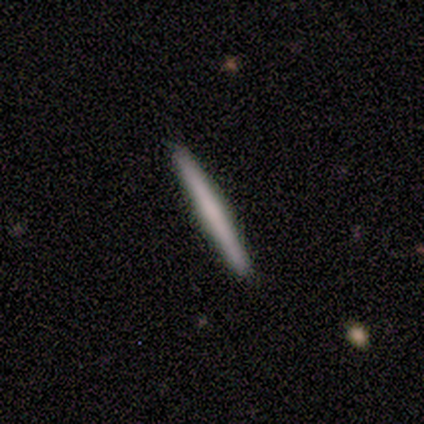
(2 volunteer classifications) smooth 50% (tied), featured or disk 50% (tied), star or artifact 0%. Down the decision tree: how rounded — cigar-shaped (100%); merging — none (100%).